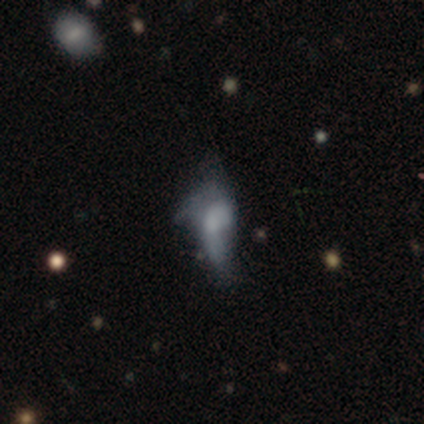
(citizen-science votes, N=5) Volunteers were most divided on "merging": major disturbance: 60%, none: 20%, minor disturbance: 20%, merger: 0%. More confident: smooth or featured — smooth (100%); how rounded — in between (100%).